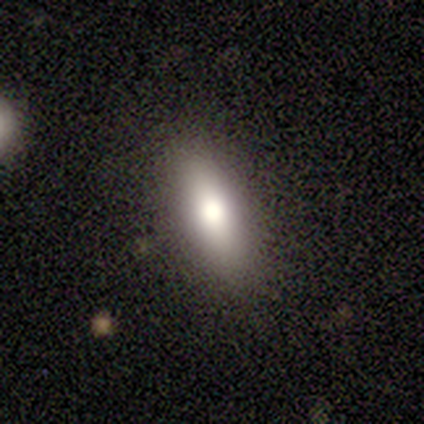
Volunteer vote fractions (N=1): Overall: smooth (100%). How rounded: cigar-shaped (100%). Merging: none (100%).